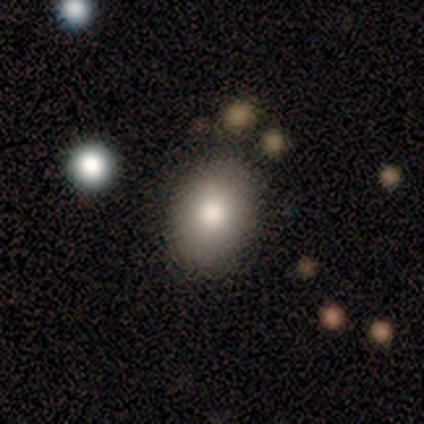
Volunteers were most divided on "smooth or featured": smooth: 71%, featured or disk: 21%, star or artifact: 7%. More confident: merging — none (92%); how rounded — in between (80%).